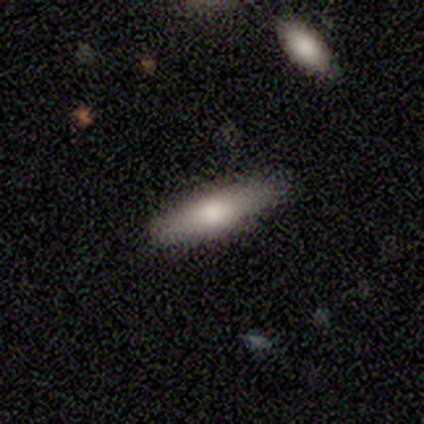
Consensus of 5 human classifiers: Smooth or featured? smooth (40%, tied with featured or disk)
How rounded? in between (50%, tied with cigar-shaped)
Merging? none (100%)